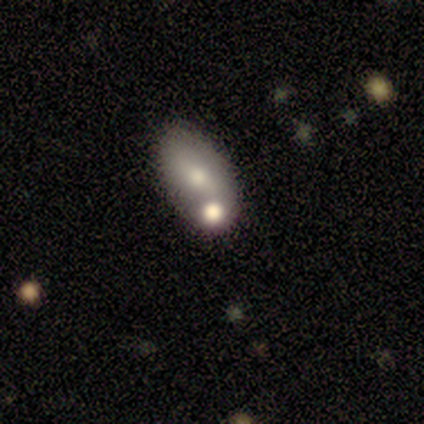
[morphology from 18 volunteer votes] Smooth or featured: featured or disk — 44% (smooth — 33%)
Edge-on disk: no — 100%
Bar: no — 75% (strong — 12%)
Spiral arms: no — 88% (yes — 12%)
Bulge size: small — 50% (dominant — 12%)
Merging: none — 50% (tied with merger — 50%)